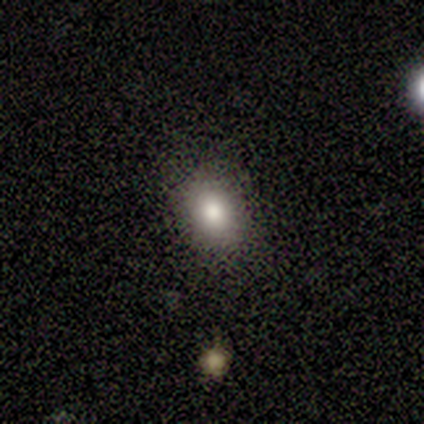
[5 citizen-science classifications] This is clearly a smooth galaxy (80%). How rounded: possibly round (50%, tied with in between). Merging: likely none (75%).